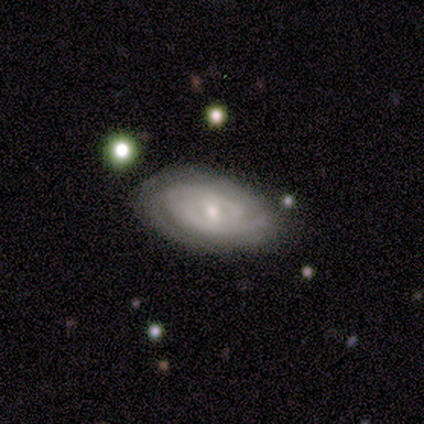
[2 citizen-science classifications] Morphology: type=featured or disk (100%); edge-on=no (100%); bar=weak (50%, tied with no); spiral arms=yes (100%); winding=tight (100%); arm count=1 (50%, tied with 2); bulge=moderate (50%, tied with none); merging=none (50%, tied with minor disturbance).